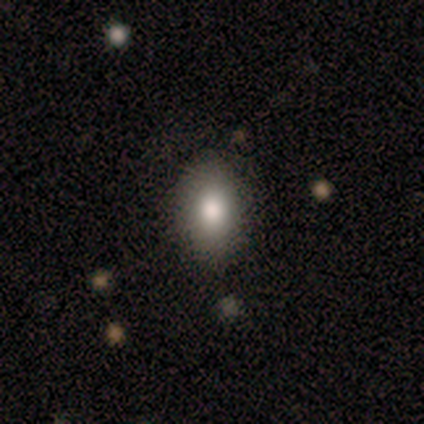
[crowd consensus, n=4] Smooth or featured: smooth — 75% (star or artifact — 25%)
How rounded: in between — 100%
Merging: none — 100%